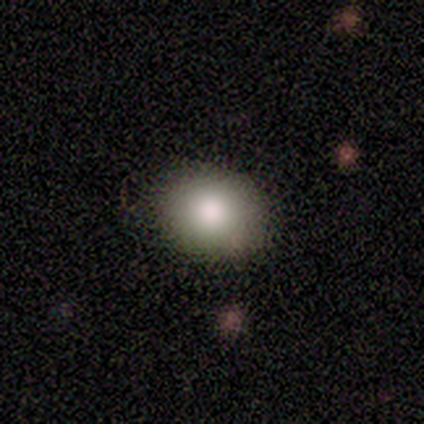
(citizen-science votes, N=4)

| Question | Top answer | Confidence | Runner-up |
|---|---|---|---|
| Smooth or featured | smooth | 75% | star or artifact (25%) |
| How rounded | round | 100% | — |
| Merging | none | 100% | — |